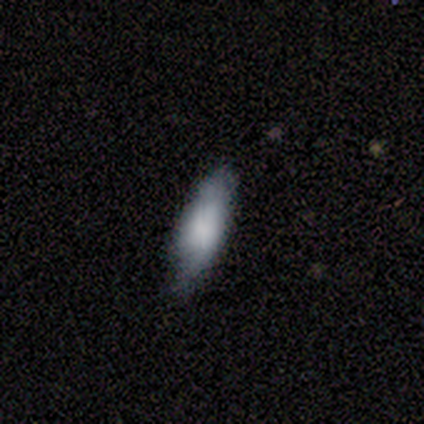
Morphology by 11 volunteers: Smooth or featured: smooth — 91% (featured or disk — 9%)
How rounded: in between — 90% (cigar-shaped — 10%)
Merging: minor disturbance — 73% (none — 27%)